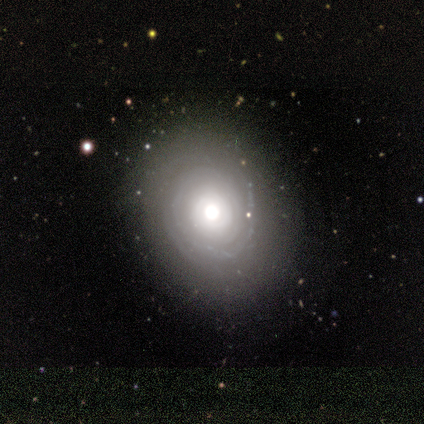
Smooth or featured: smooth — 60% (featured or disk — 40%)
How rounded: round — 100%
Merging: none — 100%